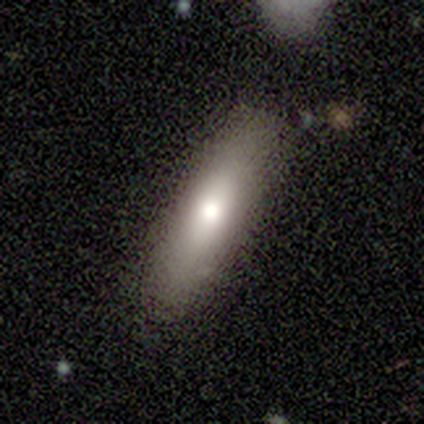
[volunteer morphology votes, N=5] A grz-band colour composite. It shows a smooth galaxy with no disk features (80%) that is in between round and cigar-shaped (50%, tied with cigar-shaped). Merging: none (100%).